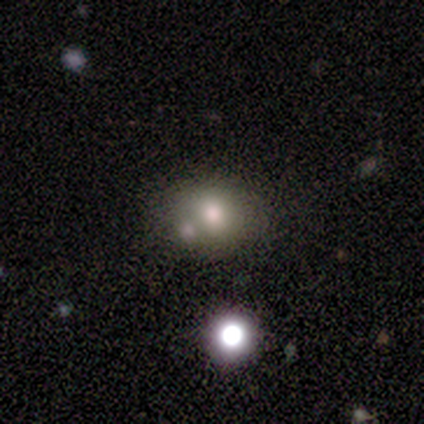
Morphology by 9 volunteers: Smooth or featured: smooth — 56% (featured or disk — 22%)
How rounded: round — 80% (in between — 20%)
Merging: none — 29% (tied with minor disturbance — 29%; merger — 29%)